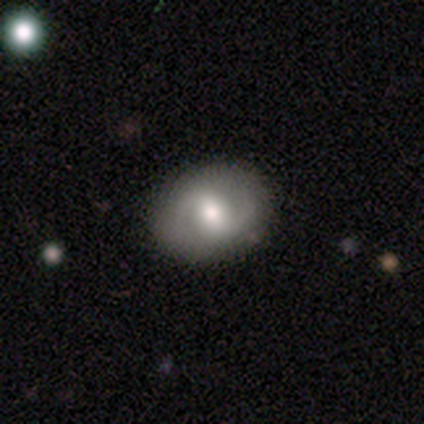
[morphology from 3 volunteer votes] type=featured or disk (67%); edge-on=yes (50%, tied with no); edge-on bulge=rounded (100%); merging=none (100%).